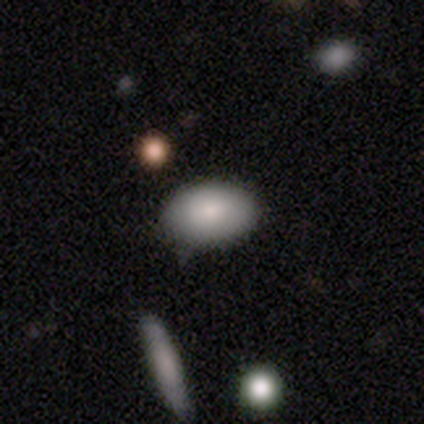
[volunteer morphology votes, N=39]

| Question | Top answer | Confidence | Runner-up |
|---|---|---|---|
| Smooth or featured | smooth | 92% | star or artifact (5%) |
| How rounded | in between | 89% | round (11%) |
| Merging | none | 78% | minor disturbance (22%) |